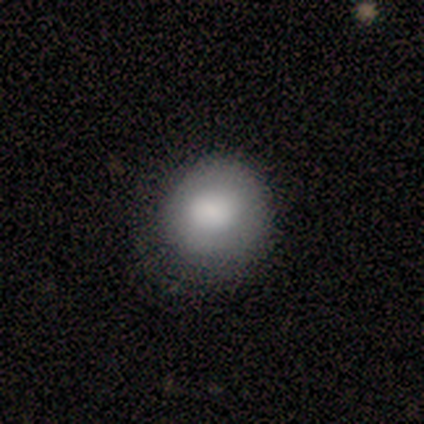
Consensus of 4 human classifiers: Morphology: type=smooth (100%); roundness=round (100%); merging=none (75%).